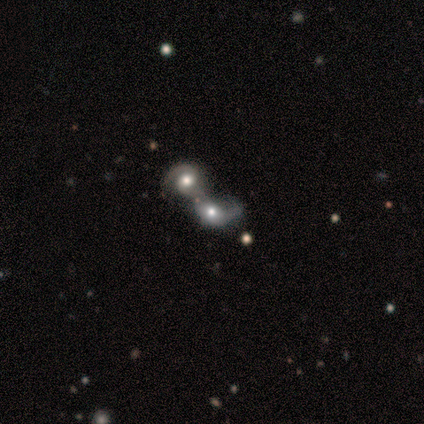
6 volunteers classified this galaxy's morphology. Smooth or featured? featured or disk (67%)
Edge-on disk? no (100%)
Bar? no (100%)
Spiral arms? yes (100%)
Spiral winding? loose (50%)
Spiral arm count? can't tell (50%)
Bulge size? moderate (75%)
Merging? merger (100%)